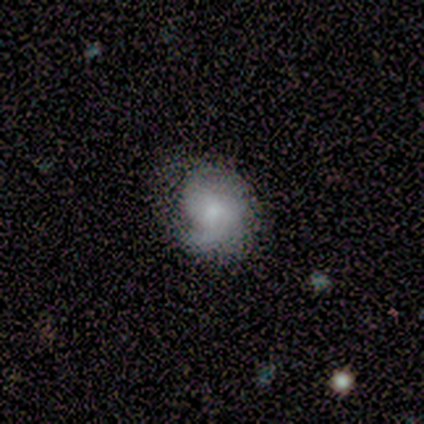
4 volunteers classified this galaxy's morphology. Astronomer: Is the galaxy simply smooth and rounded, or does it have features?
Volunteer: featured or disk — 75%.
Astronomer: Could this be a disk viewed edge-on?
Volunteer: no — 100%.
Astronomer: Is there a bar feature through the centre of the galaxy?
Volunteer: no — 67%.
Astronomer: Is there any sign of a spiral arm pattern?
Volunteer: yes — 100%.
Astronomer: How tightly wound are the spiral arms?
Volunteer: medium — 100%.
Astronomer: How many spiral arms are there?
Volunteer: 1 — 33%, tied with 2 and 3 at 33%.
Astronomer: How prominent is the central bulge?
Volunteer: moderate — 33%, tied with small and none at 33%.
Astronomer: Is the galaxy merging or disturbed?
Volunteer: none — 75%.